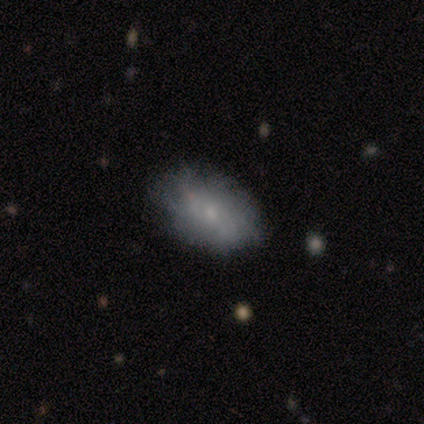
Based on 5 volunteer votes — Smooth or featured? smooth (60%)
How rounded? in between (100%)
Merging? none (40%, tied with merger)